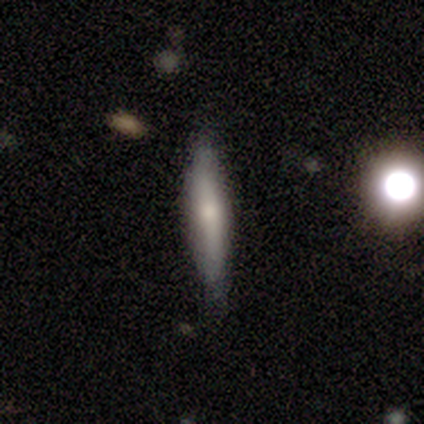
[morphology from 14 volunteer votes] type=smooth (50%); roundness=cigar-shaped (57%); merging=none (85%).